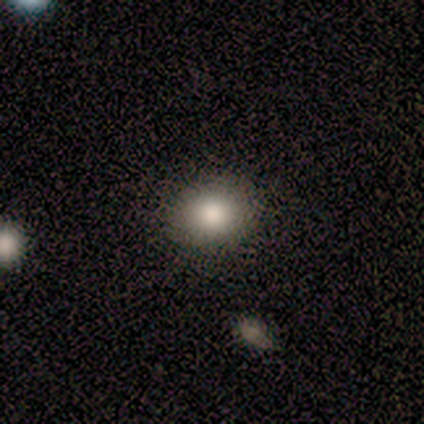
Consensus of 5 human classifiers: Smooth or featured: smooth — 80% (featured or disk — 20%)
How rounded: round — 50% (tied with in between — 50%)
Merging: none — 100%